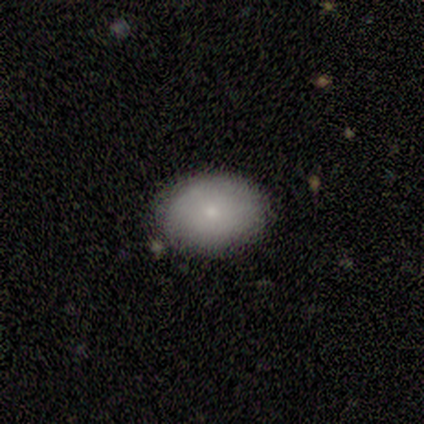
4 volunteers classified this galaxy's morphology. This is likely a smooth galaxy (75%). How rounded: clearly in between (100%). Merging: clearly none (100%).